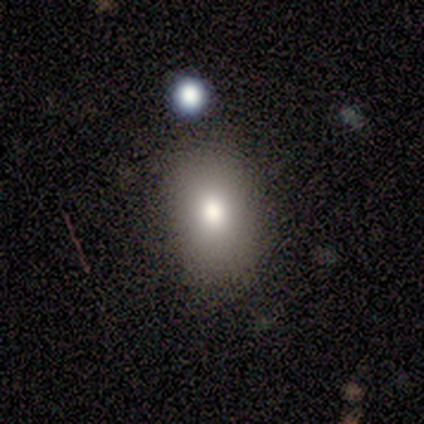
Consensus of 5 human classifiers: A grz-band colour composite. It shows a smooth galaxy with no disk features (60%) that is in between round and cigar-shaped (67%). Merging: none (75%).